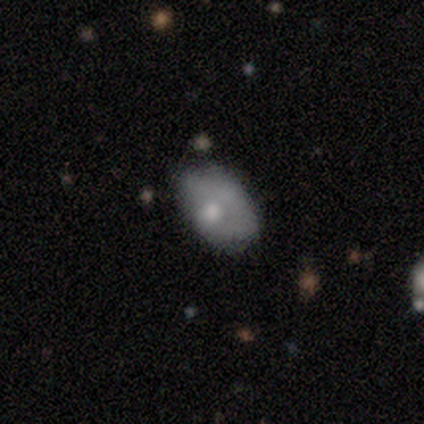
Morphology: type=smooth (60%); roundness=in between (100%); merging=minor disturbance (50%).